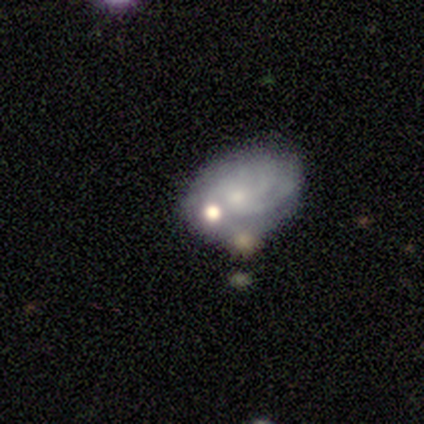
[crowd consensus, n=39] Morphology: type=featured or disk (67%); edge-on=no (100%); bar=no (81%); spiral arms=yes (69%); winding=tight (67%); arm count=can't tell (39%); bulge=small (65%); merging=none (44%).